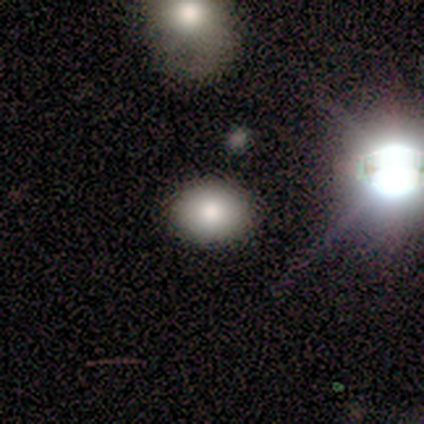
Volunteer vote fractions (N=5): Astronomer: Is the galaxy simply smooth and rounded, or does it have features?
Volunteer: smooth — 100%.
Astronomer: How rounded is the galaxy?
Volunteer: in between — 60% (runner-up: round, 40%).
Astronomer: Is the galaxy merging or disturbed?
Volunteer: none — 100%.